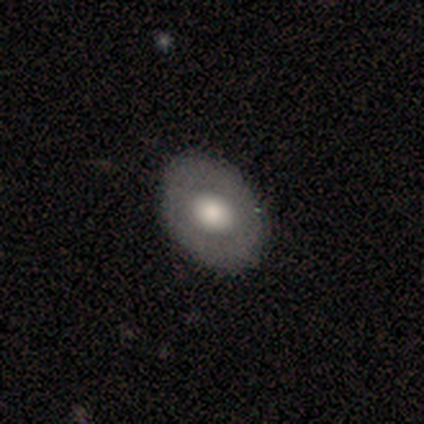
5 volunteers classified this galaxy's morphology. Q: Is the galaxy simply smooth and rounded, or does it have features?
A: featured or disk — 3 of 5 (60%).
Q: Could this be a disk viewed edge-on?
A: no — 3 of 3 (100%).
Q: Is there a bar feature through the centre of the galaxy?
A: no — 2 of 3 (67%).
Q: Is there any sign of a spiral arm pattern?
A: no — 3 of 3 (100%).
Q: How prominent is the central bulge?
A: large — 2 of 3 (67%).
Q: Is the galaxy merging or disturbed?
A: none — 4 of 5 (80%).